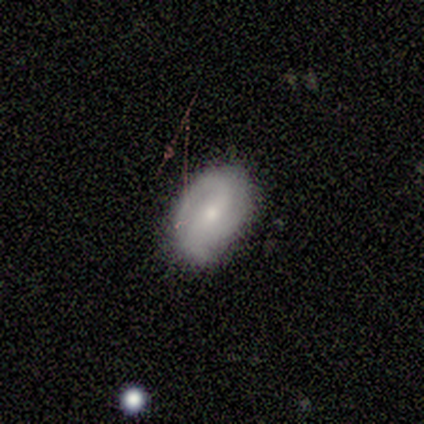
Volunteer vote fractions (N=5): Smooth or featured? featured or disk (80%)
Edge-on disk? no (100%)
Bar? weak (75%)
Spiral arms? yes (50%, tied with no)
Spiral winding? tight (50%, tied with loose)
Spiral arm count? 3 (50%, tied with can't tell)
Bulge size? small (100%)
Merging? none (100%)